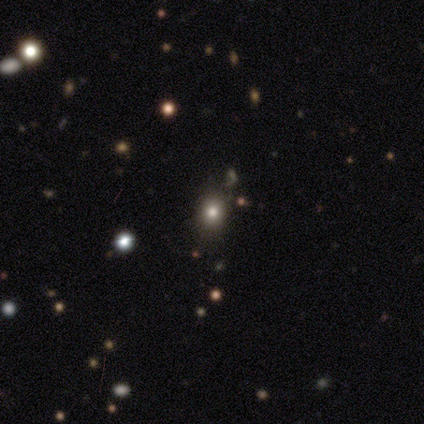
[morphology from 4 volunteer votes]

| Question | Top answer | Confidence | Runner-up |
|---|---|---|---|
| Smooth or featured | star or artifact | 50% | smooth (25%) |